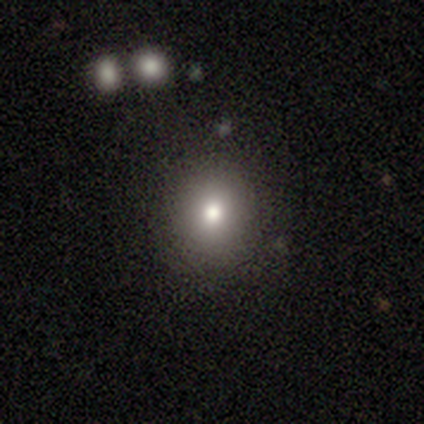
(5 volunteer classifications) Smooth or featured?
  - smooth: 80% *
  - star or artifact: 20%
  - featured or disk: 0%
How rounded?
  - round: 100% *
  - in between: 0%
  - cigar-shaped: 0%
Merging?
  - none: 75% *
  - minor disturbance: 25%
  - major disturbance: 0%
  - merger: 0%